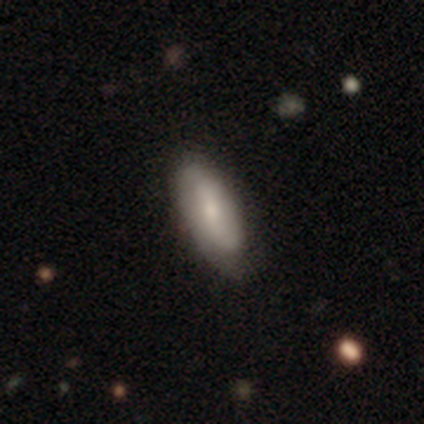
Smooth or featured? 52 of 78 (67%) said smooth. How rounded? 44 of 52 (85%) said in between. Merging? 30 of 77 (39%) said none.